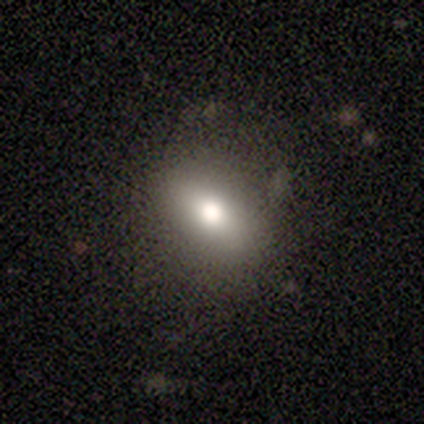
A smooth galaxy with no disk features (67%) that is in between round and cigar-shaped (100%). Merging: none (80%).